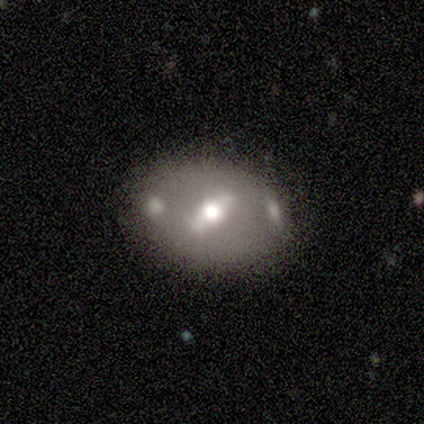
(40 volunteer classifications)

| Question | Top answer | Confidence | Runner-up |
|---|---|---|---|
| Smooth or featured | featured or disk | 70% | smooth (28%) |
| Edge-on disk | no | 96% | yes (4%) |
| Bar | weak | 48% | strong (44%) |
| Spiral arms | no | 85% | yes (15%) |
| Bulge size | moderate | 63% | small (19%) |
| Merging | none | 77% | minor disturbance (10%) |